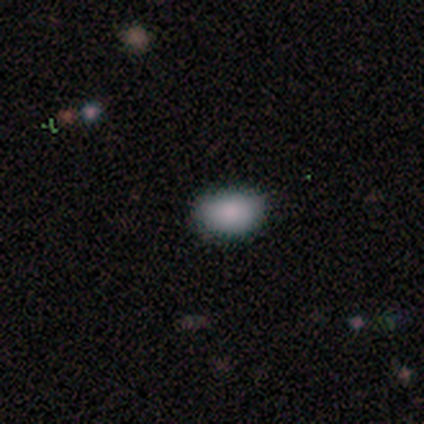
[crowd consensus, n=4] Smooth or featured? smooth (100%)
How rounded? in between (75%)
Merging? none (100%)